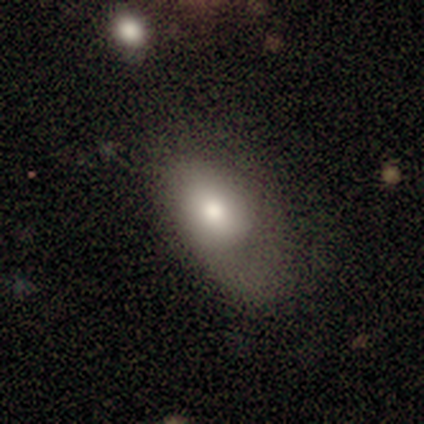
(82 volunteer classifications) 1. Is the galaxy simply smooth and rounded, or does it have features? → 80% smooth, 16% featured or disk, 4% star or artifact.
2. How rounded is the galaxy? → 85% in between, 12% round, 3% cigar-shaped.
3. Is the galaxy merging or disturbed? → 42% major disturbance, 34% none, 24% minor disturbance, 0% merger.